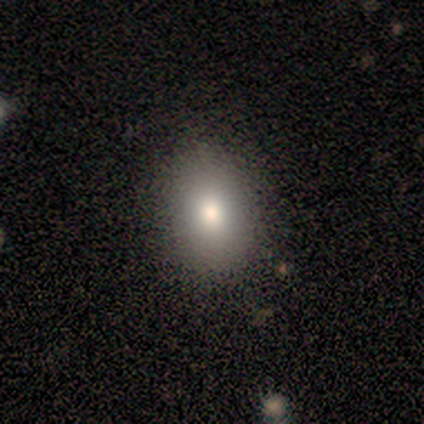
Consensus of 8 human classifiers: Overall: smooth (75%). How rounded: in between (83%). Merging: none (83%).